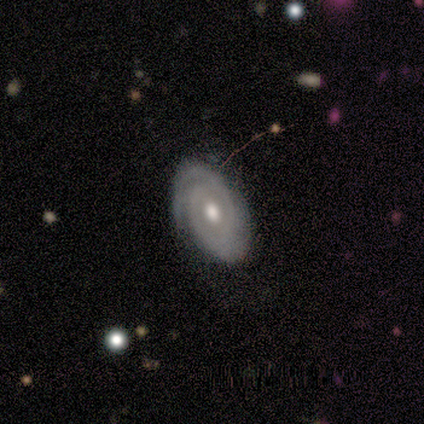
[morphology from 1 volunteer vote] Consensus on every question: smooth or featured — featured or disk (100%); edge-on disk — no (100%); bar — weak (100%); spiral arms — yes (100%); spiral winding — tight (100%); spiral arm count — can't tell (100%); bulge size — moderate (100%); merging — none (100%).